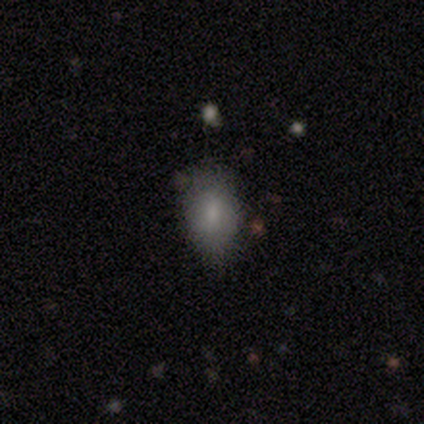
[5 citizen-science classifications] smooth 80%, star or artifact 20%, featured or disk 0%. Down the decision tree: how rounded — round (50%, tied with in between); merging — none (75%).